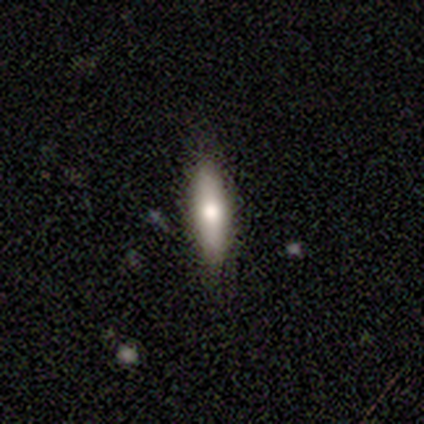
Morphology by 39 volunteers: smooth 79%, featured or disk 18%, star or artifact 3%. Down the decision tree: how rounded — cigar-shaped (77%); merging — none (84%).